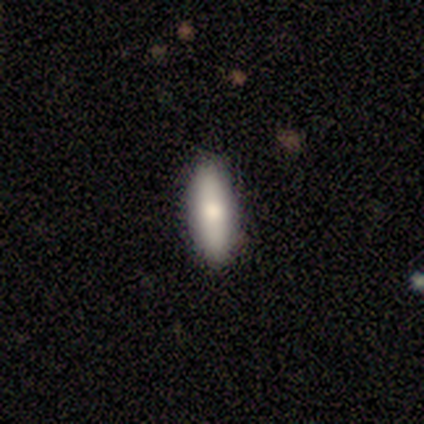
Overall: smooth (59%; featured or disk 24%). How rounded: in between (55%; cigar-shaped 41%). Merging: none (84%).